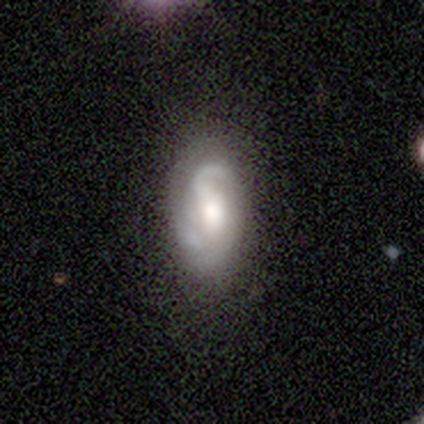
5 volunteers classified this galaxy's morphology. A featured or disk galaxy (60%) with a weak bar (67%), 2 (100%) medium (67%) spiral arms (100%) and a moderate central bulge (67%). Merging: none (100%).